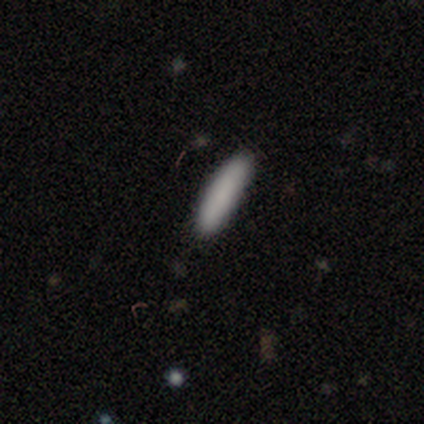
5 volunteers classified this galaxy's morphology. Q: Smooth or featured?
A: smooth (100%)
Q: How rounded?
A: cigar-shaped (100%)
Q: Merging?
A: none (100%)